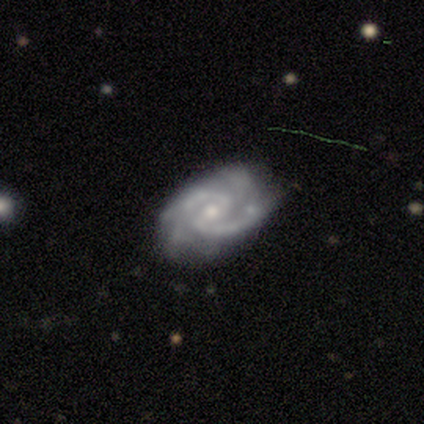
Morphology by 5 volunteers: Q: Smooth or featured?
A: featured or disk (100%)
Q: Edge-on disk?
A: no (100%)
Q: Bar?
A: weak (60%); runner-up: strong (20%)
Q: Spiral arms?
A: yes (100%)
Q: Spiral winding?
A: tight (60%); runner-up: medium (40%)
Q: Spiral arm count?
A: 2 (60%); runner-up: 3 (20%)
Q: Bulge size?
A: small (80%); runner-up: moderate (20%)
Q: Merging?
A: none (80%); runner-up: minor disturbance (20%)